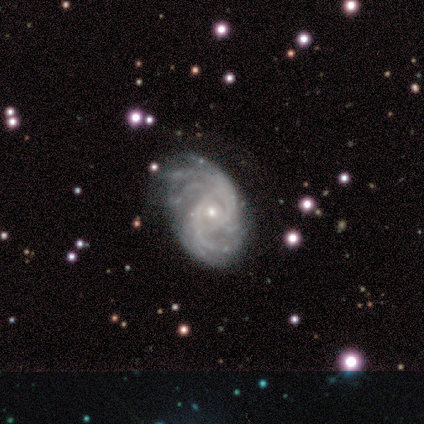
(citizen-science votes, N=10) Smooth or featured? featured or disk (100%)
Edge-on disk? no (100%)
Bar? no (80%)
Spiral arms? yes (100%)
Spiral winding? tight (80%)
Spiral arm count? 2 (30%, tied with can't tell)
Bulge size? small (60%)
Merging? none (80%)